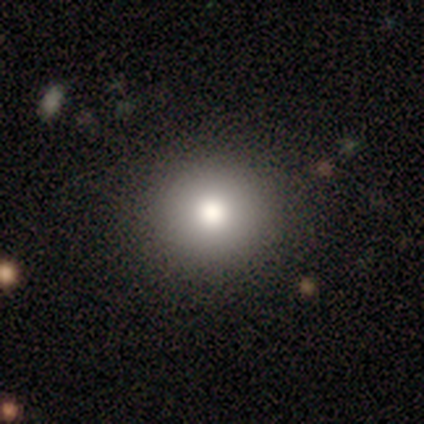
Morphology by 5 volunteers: Overall: smooth (80%). How rounded: round (75%). Merging: none (100%).